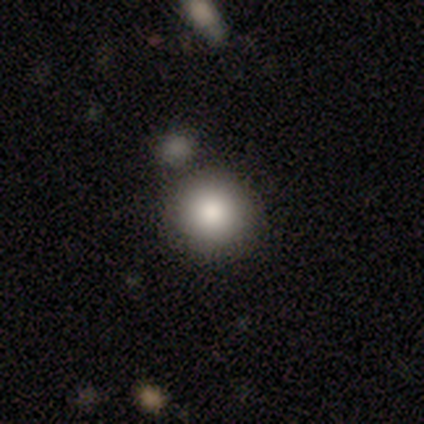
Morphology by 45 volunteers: Q: Smooth or featured?
A: smooth (91%); runner-up: star or artifact (7%)
Q: How rounded?
A: round (98%); runner-up: in between (2%)
Q: Merging?
A: none (83%); runner-up: minor disturbance (10%)